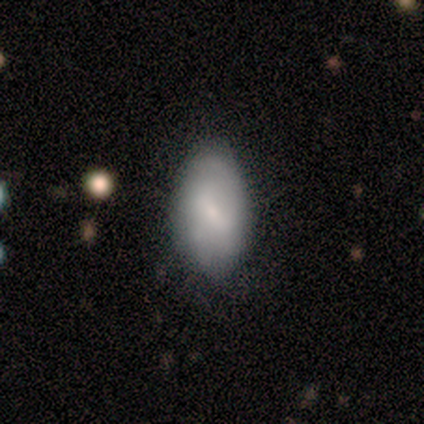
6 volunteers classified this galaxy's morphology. smooth-or-featured: featured or disk: 50% | star or artifact: 33% | smooth: 17%
  disk-edge-on: no: 100% | yes: 0%
    bar: no: 67% | strong: 33% | weak: 0%
    has-spiral-arms: yes: 67% | no: 33%
      spiral-winding: medium: 100% | tight: 0% | loose: 0%
      spiral-arm-count: 2: 50% (tied) | can't tell: 50% (tied) | 1: 0% | 3: 0% | 4: 0% | more than 4: 0%
    bulge-size: small: 67% | moderate: 33% | dominant: 0% | large: 0% | none: 0%
  merging: none: 75% | major disturbance: 25% | minor disturbance: 0% | merger: 0%